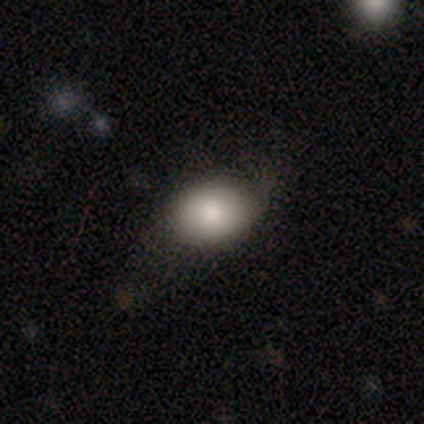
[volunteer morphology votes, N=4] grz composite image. It shows a smooth galaxy with no disk features (100%) that is in between round and cigar-shaped (75%). Merging: none (50%, tied with minor disturbance).